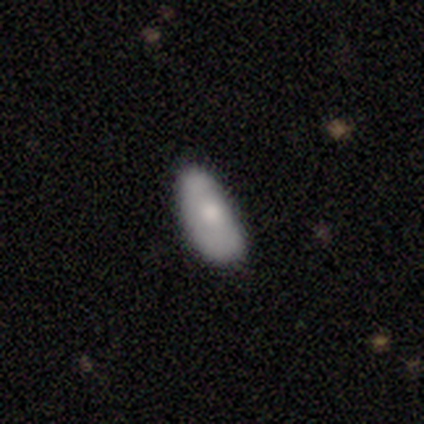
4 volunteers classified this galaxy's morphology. Smooth or featured?
  - smooth: 75% *
  - star or artifact: 25%
  - featured or disk: 0%
How rounded?
  - in between: 67% *
  - cigar-shaped: 33%
  - round: 0%
Merging?
  - minor disturbance: 100% *
  - none: 0%
  - major disturbance: 0%
  - merger: 0%